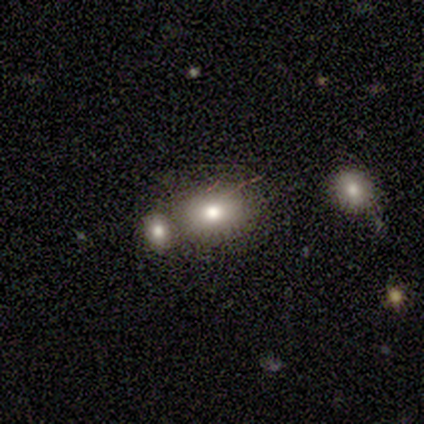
Smooth or featured?
  - smooth: 80% *
  - featured or disk: 20%
  - star or artifact: 0%
How rounded?
  - in between: 100% *
  - round: 0%
  - cigar-shaped: 0%
Merging?
  - merger: 60% *
  - none: 40%
  - minor disturbance: 0%
  - major disturbance: 0%